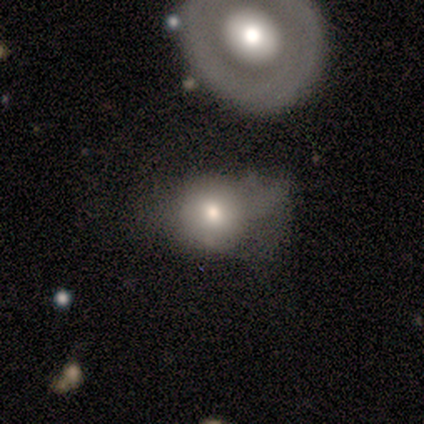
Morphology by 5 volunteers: Volunteers were most divided on "merging": none: 60%, minor disturbance: 20%, major disturbance: 20%, merger: 0%. More confident: smooth or featured — smooth (80%); how rounded — round (75%).